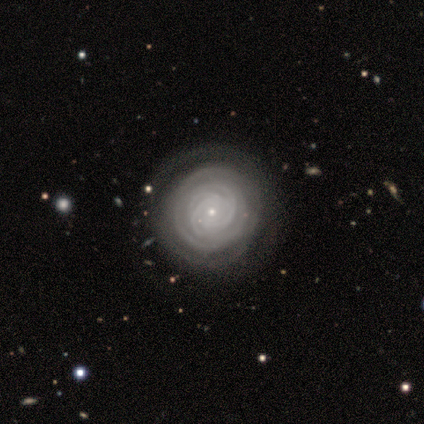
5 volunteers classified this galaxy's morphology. smooth_or_featured: featured or disk (p=1.00)
disk_edge_on: no (p=1.00)
bar: no (p=0.80) [alt: weak p=0.20]
has_spiral_arms: yes (p=1.00)
spiral_winding: tight (p=1.00)
spiral_arm_count: 3 (p=0.40) [alt: 2 p=0.20]
bulge_size: small (p=0.80) [alt: none p=0.20]
merging: none (p=1.00)